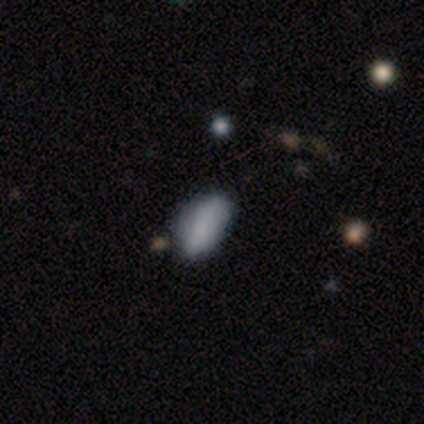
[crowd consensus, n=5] A smooth galaxy with no disk features (80%) that is in between round and cigar-shaped (75%). Merging: minor disturbance (50%).